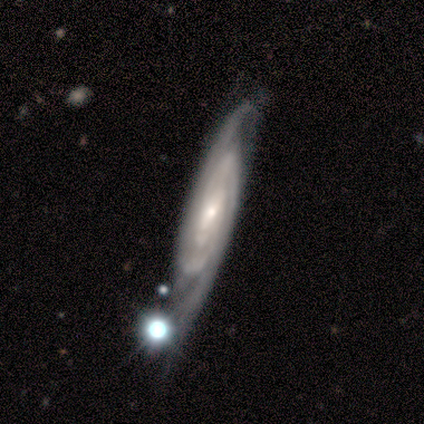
Smooth or featured? featured or disk (100%)
Edge-on disk? no (75%)
Bar? no (67%)
Spiral arms? yes (67%)
Spiral winding? tight (100%)
Spiral arm count? can't tell (100%)
Bulge size? small (67%)
Merging? none (75%)